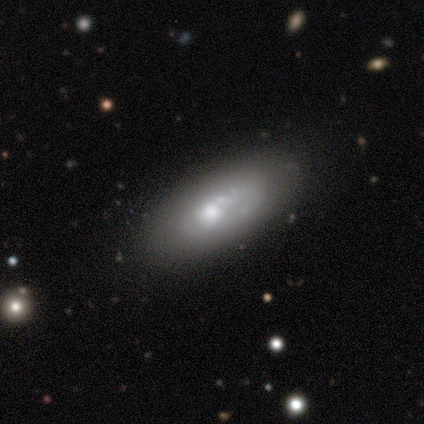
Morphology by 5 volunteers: This is clearly a featured or disk galaxy (80%). It is clearly not viewed edge-on (100%). Bar: possibly no (50%). Spiral arm pattern: clearly no (100%). Central bulge: likely moderate (75%). Merging: clearly none (80%).